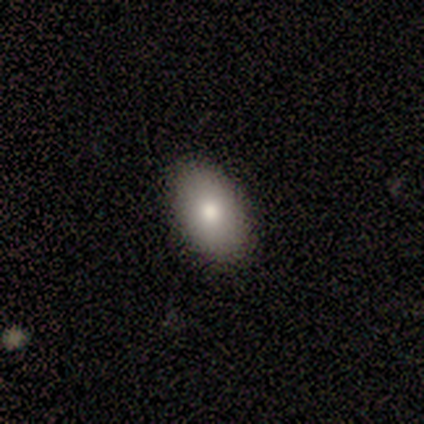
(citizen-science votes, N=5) Smooth or featured?
  - smooth: 80% *
  - featured or disk: 20%
  - star or artifact: 0%
How rounded?
  - in between: 100% *
  - round: 0%
  - cigar-shaped: 0%
Merging?
  - none: 80% *
  - major disturbance: 20%
  - minor disturbance: 0%
  - merger: 0%